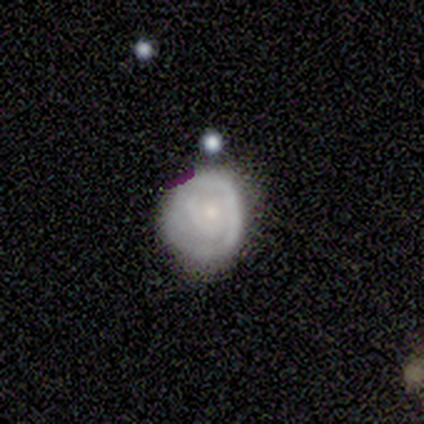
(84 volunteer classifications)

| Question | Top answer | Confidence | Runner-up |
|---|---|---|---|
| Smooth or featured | featured or disk | 52% | smooth (36%) |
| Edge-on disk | no | 100% | — |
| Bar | no | 86% | weak (14%) |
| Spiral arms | yes | 68% | no (32%) |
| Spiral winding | tight | 87% | medium (7%) |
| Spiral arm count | can't tell | 40% | 1 (30%) |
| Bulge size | small | 73% | moderate (20%) |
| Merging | none | 51% | minor disturbance (35%) |